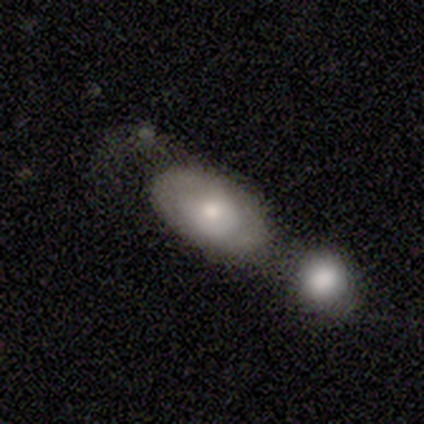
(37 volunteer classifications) Smooth or featured? 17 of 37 (46%, tied with featured or disk) said smooth. How rounded? 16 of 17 (94%) said in between. Merging? 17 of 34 (50%) said merger.